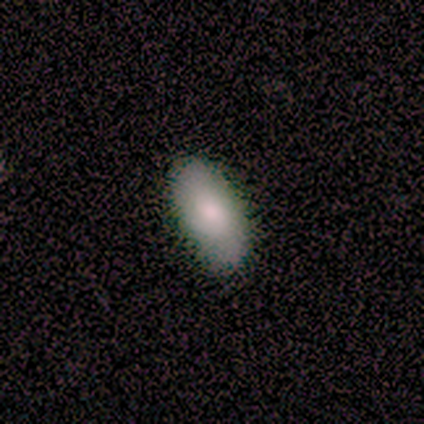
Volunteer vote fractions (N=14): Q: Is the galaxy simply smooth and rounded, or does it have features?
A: smooth — 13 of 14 (93%).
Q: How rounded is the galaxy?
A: in between — 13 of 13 (100%).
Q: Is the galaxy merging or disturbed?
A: none — 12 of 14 (86%).